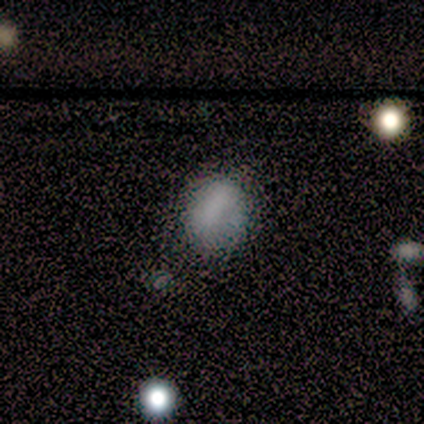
This appears to be a smooth galaxy with no disk features (100%) that is in between round and cigar-shaped (80%). Merging: none (80%).